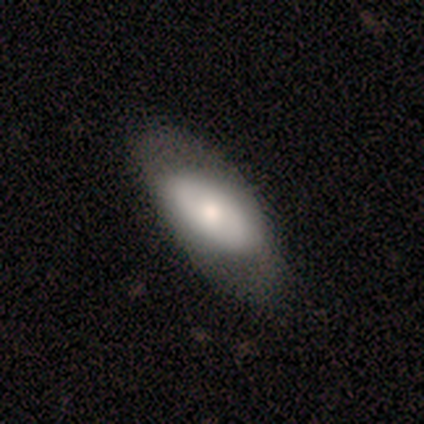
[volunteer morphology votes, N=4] Overall: smooth (100%). How rounded: in between (100%). Merging: none (75%).